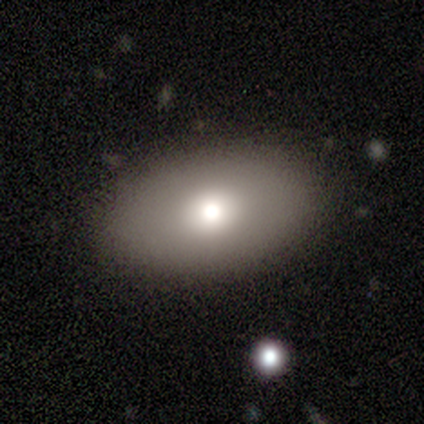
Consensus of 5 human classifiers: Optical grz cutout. It shows a smooth galaxy with no disk features (60%) that is in between round and cigar-shaped (67%). Merging: none (80%).